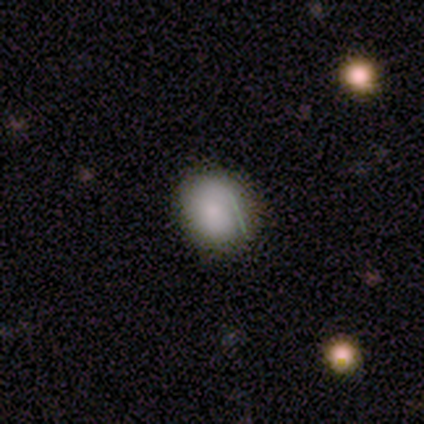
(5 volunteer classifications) smooth-or-featured: smooth: 80% | star or artifact: 20% | featured or disk: 0%
  how-rounded: round: 75% | in between: 25% | cigar-shaped: 0%
  merging: none: 100% | minor disturbance: 0% | major disturbance: 0% | merger: 0%